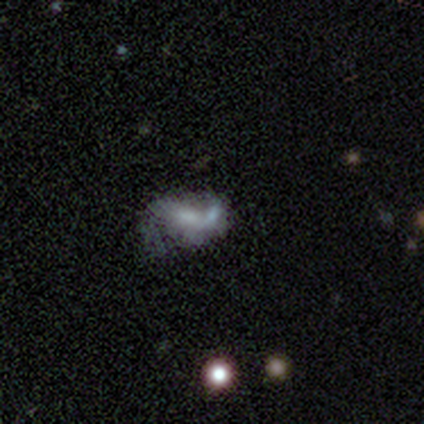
Volunteers were most divided on "merging": merger: 50%, major disturbance: 33%, none: 17%, minor disturbance: 0%. More confident: edge-on disk — no (75%); bar — no (67%); spiral arms — no (67%); bulge size — none (67%); smooth or featured — featured or disk (50%).